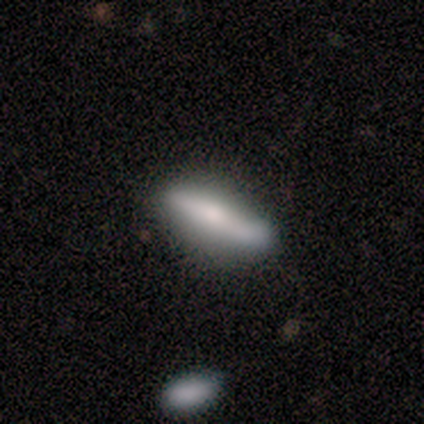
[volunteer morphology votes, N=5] Volunteers were most divided on "smooth or featured": featured or disk: 60%, smooth: 40%, star or artifact: 0%. More confident: edge-on disk — yes (100%); edge-on bulge — rounded (100%); merging — none (60%).